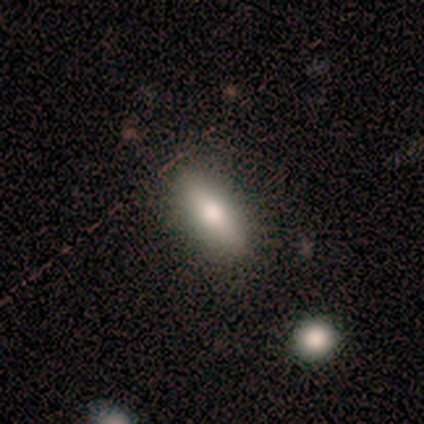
smooth 100%, featured or disk 0%, star or artifact 0%. Down the decision tree: how rounded — in between (50%, tied with cigar-shaped); merging — none (67%).